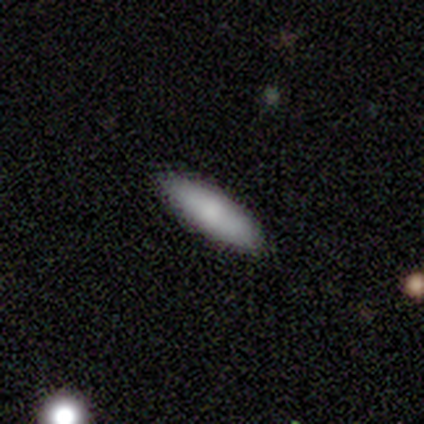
Volunteers were most divided on "smooth or featured": smooth: 50%, featured or disk: 25%, star or artifact: 25%. More confident: how rounded — cigar-shaped (100%); merging — none (100%).